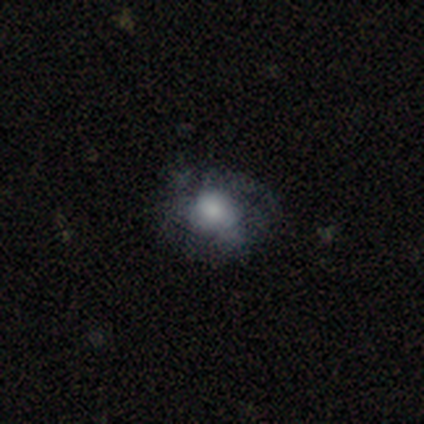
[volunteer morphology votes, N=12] type=smooth (67%); roundness=in between (62%); merging=none (45%).